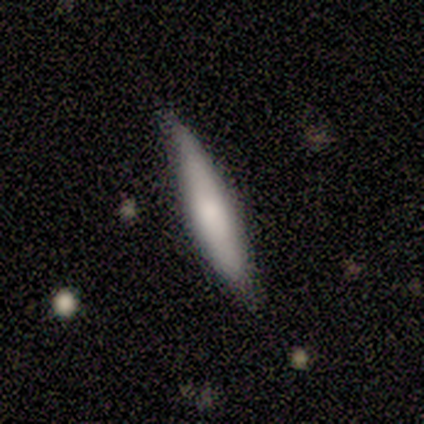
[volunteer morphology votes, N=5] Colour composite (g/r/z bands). It shows a smooth galaxy with no disk features (80%) that is cigar-shaped (100%). Merging: none (100%).